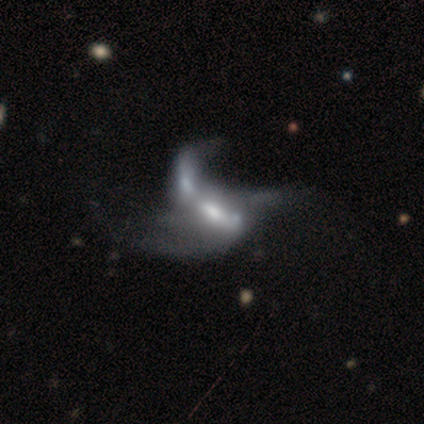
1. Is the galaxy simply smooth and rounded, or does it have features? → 80% featured or disk, 15% smooth, 5% star or artifact.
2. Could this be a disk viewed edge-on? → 100% no, 0% yes.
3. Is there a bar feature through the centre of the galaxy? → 47% no, 34% weak, 19% strong.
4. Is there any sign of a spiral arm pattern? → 69% no, 31% yes.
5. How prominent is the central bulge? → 44% moderate, 22% small, 19% none, 12% large, 3% dominant.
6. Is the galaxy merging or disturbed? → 50% merger, 21% major disturbance, 3% none, 3% minor disturbance.